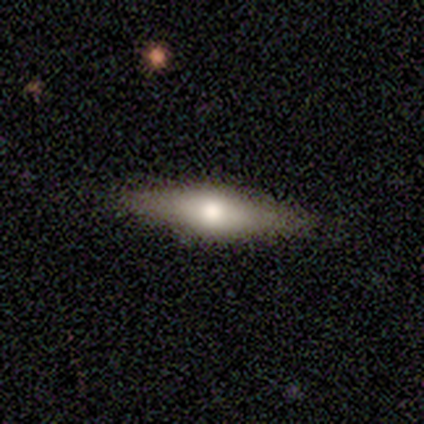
This is likely a smooth galaxy (60%). How rounded: likely cigar-shaped (67%). Merging: likely none (60%).